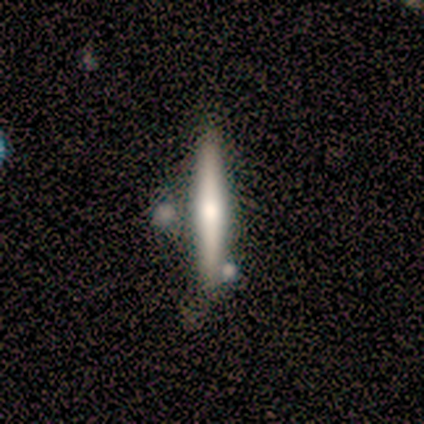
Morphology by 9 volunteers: smooth-or-featured: featured or disk: 78% | smooth: 22% | star or artifact: 0%
  disk-edge-on: yes: 100% | no: 0%
    edge-on-bulge: rounded: 86% | none: 14% | boxy: 0%
  merging: none: 56% | minor disturbance: 44% | major disturbance: 0% | merger: 0%